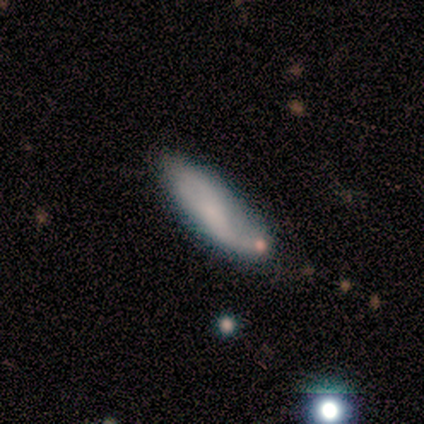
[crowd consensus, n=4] This is clearly a smooth galaxy (100%). How rounded: likely cigar-shaped (75%). Merging: possibly none (50%).